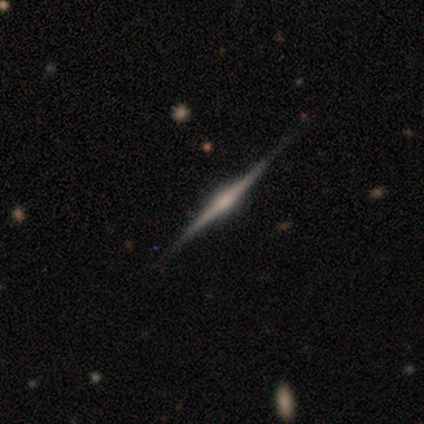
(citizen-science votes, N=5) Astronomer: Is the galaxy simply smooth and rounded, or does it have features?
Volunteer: featured or disk — 80%.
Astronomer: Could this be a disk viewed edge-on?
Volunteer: yes — 100%.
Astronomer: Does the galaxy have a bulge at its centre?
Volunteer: rounded — 50%.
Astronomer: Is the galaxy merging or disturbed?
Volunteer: none — 100%.